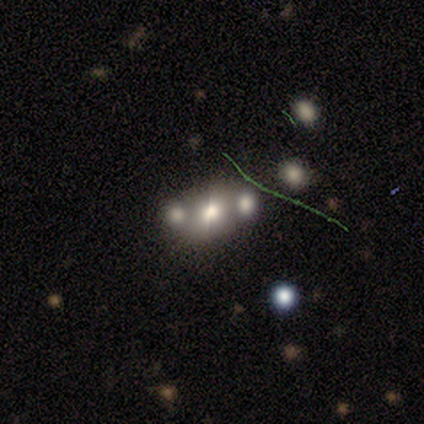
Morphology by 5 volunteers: smooth-or-featured: smooth: 60% | featured or disk: 40% | star or artifact: 0%
  how-rounded: round: 67% | in between: 33% | cigar-shaped: 0%
  merging: none: 60% | merger: 40% | minor disturbance: 0% | major disturbance: 0%